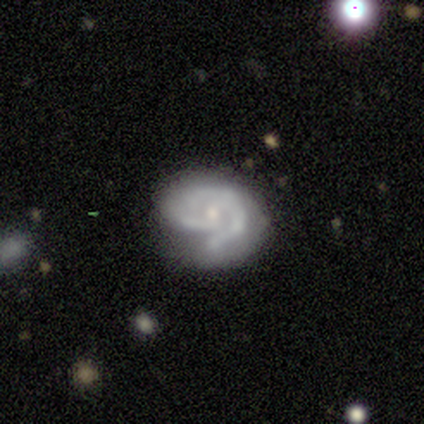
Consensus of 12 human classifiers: Q: Smooth or featured?
A: featured or disk (92%); runner-up: smooth (8%)
Q: Edge-on disk?
A: no (100%)
Q: Bar?
A: no (73%); runner-up: weak (18%)
Q: Spiral arms?
A: yes (100%)
Q: Spiral winding?
A: medium (55%); runner-up: tight (45%)
Q: Spiral arm count?
A: 2 (45%); runner-up: 1 (18%)
Q: Bulge size?
A: small (73%); runner-up: moderate (27%)
Q: Merging?
A: major disturbance (42%); runner-up: none (33%)